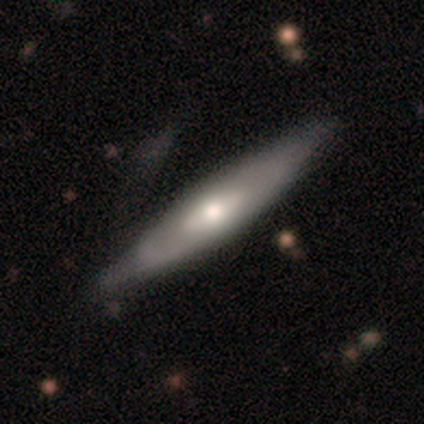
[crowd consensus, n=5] Morphology: type=smooth (80%); roundness=cigar-shaped (75%); merging=none (60%).